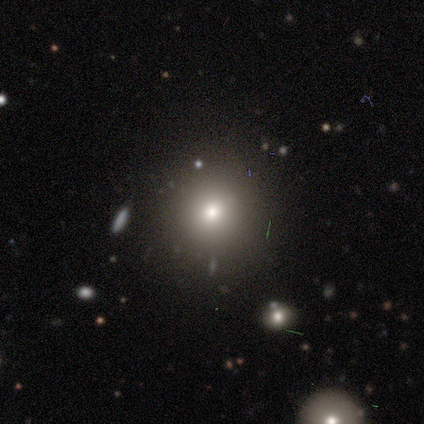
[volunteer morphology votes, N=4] Overall: smooth (75%). How rounded: round (67%; in between 33%). Merging: none (100%).